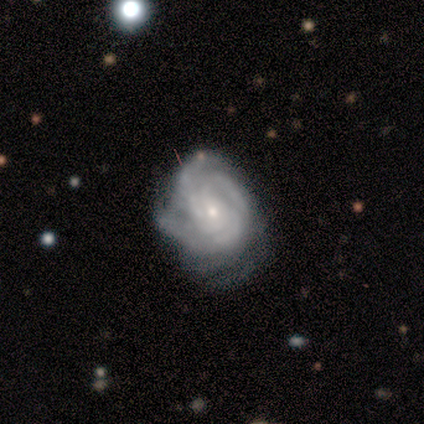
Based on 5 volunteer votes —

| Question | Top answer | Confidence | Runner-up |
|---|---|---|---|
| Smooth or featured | featured or disk | 100% | — |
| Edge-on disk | no | 100% | — |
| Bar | no | 80% | weak (20%) |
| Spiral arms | yes | 100% | — |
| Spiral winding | tight | 80% | medium (20%) |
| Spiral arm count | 2 | 40% | tied: 4 (40%) |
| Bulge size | small | 80% | large (20%) |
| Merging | minor disturbance | 60% | none (40%) |